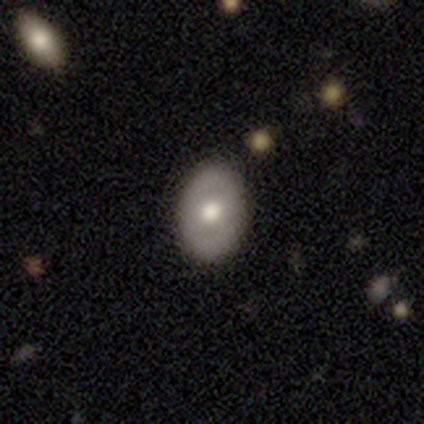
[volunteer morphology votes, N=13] smooth-or-featured: smooth: 46% (tied) | featured or disk: 46% (tied) | star or artifact: 8%
  how-rounded: round: 50% (tied) | in between: 50% (tied) | cigar-shaped: 0%
  merging: none: 83% | major disturbance: 8% | merger: 8% | minor disturbance: 0%